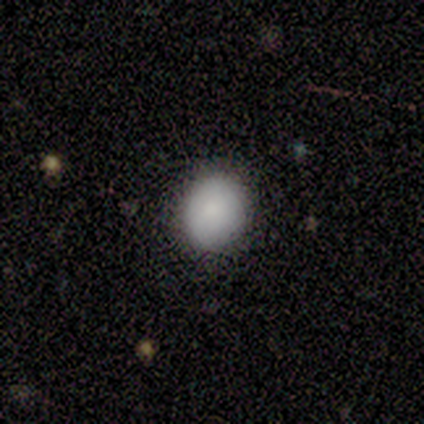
Q: Smooth or featured?
A: smooth (100%)
Q: How rounded?
A: round (60%); runner-up: in between (40%)
Q: Merging?
A: none (80%); runner-up: major disturbance (20%)